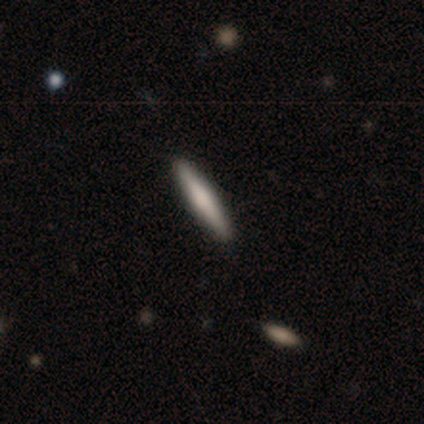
This appears to be a smooth galaxy with no disk features (100%) that is cigar-shaped (80%). Merging: none (100%).